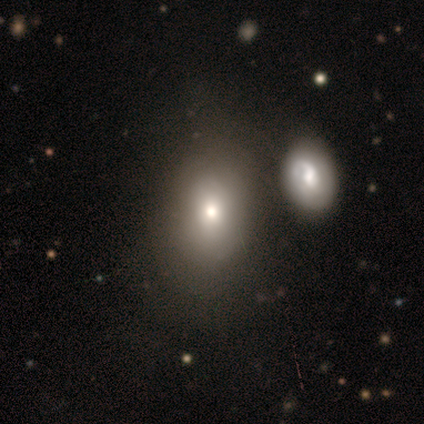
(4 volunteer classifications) Smooth or featured?
  - smooth: 75% *
  - star or artifact: 25%
  - featured or disk: 0%
How rounded?
  - in between: 67% *
  - round: 33%
  - cigar-shaped: 0%
Merging?
  - none: 67% *
  - merger: 33%
  - minor disturbance: 0%
  - major disturbance: 0%